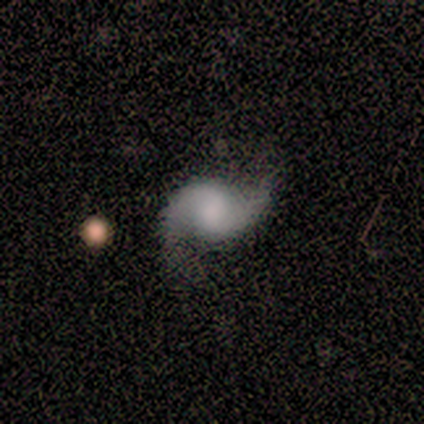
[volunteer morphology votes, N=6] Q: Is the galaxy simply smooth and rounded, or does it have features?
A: featured or disk — 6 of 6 (100%).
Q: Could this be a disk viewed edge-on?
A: no — 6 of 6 (100%).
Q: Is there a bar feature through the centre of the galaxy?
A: no — 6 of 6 (100%).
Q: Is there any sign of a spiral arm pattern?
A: yes — 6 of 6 (100%).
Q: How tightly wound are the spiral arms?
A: medium — 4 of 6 (67%).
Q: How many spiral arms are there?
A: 2 — 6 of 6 (100%).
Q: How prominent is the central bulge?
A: none — 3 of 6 (50%).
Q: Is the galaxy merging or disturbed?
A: none — 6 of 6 (100%).